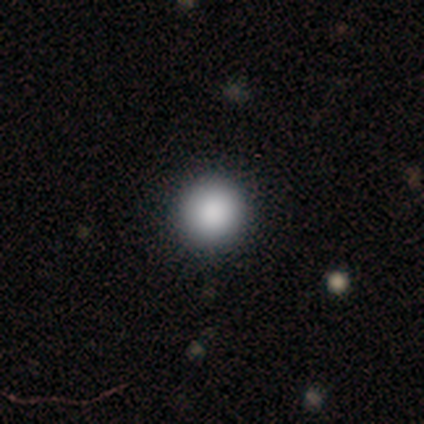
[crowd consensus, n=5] Morphology: type=smooth (100%); roundness=round (80%); merging=minor disturbance (60%).